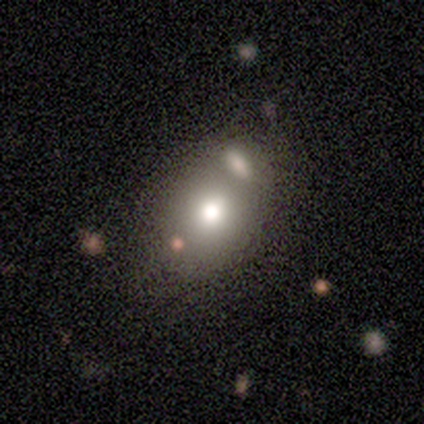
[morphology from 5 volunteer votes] Volunteers were most divided on "how rounded": in between: 67%, round: 33%, cigar-shaped: 0%. More confident: merging — none (75%); smooth or featured — smooth (60%).